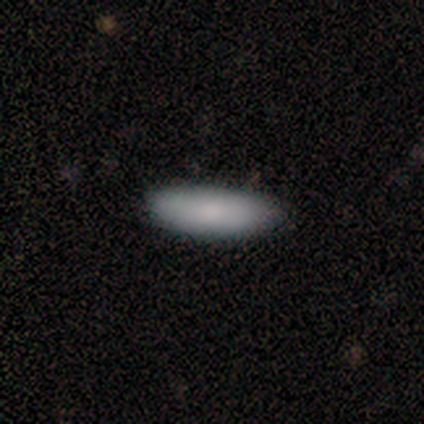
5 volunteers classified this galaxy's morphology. Volunteers were most divided on "how rounded": in between: 75%, cigar-shaped: 25%, round: 0%. More confident: merging — none (100%); smooth or featured — smooth (80%).